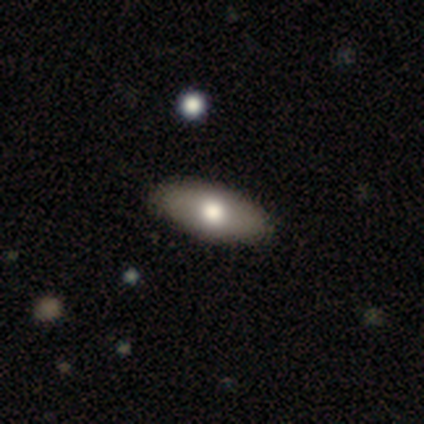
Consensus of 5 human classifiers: Overall: featured or disk (60%; smooth 40%). Edge-on disk: no (100%). Bar: no (100%). Spiral arms: no (100%). Bulge size: moderate (100%). Merging: none (100%).